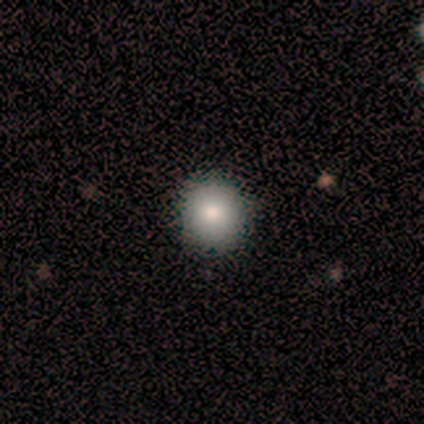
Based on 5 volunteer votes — Volunteers were most divided on "how rounded": round: 75%, in between: 25%, cigar-shaped: 0%. More confident: smooth or featured — smooth (80%); merging — none (75%).